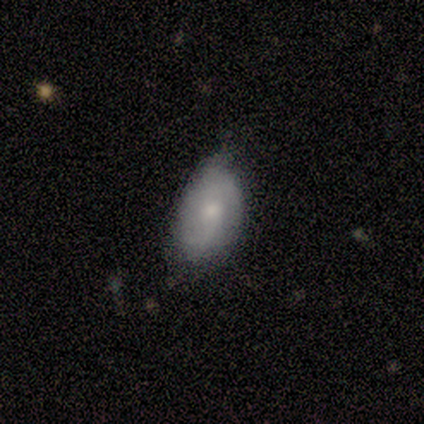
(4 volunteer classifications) Smooth or featured? featured or disk (75%)
Edge-on disk? no (100%)
Bar? no (67%)
Spiral arms? yes (67%)
Spiral winding? medium (50%, tied with loose)
Spiral arm count? 1 (50%, tied with 2)
Bulge size? small (67%)
Merging? minor disturbance (75%)